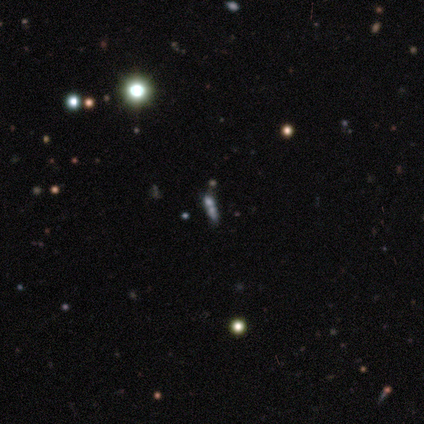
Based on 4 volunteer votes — Overall: featured or disk (50%; smooth 25%). Edge-on disk: yes (50%, tied with no). Edge-on bulge: rounded (100%). Merging: none (33%, tied with major disturbance and merger).